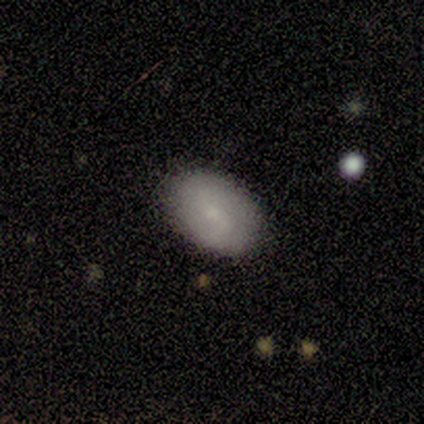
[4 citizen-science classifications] Smooth or featured?
  - smooth: 100% *
  - featured or disk: 0%
  - star or artifact: 0%
How rounded?
  - in between: 100% *
  - round: 0%
  - cigar-shaped: 0%
Merging?
  - none: 100% *
  - minor disturbance: 0%
  - major disturbance: 0%
  - merger: 0%